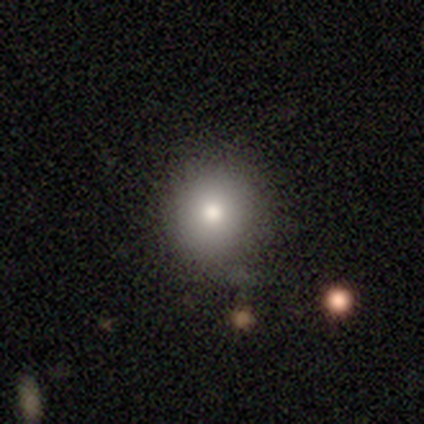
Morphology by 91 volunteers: A smooth galaxy with no disk features (78%) that is round (87%). Merging: none (80%).